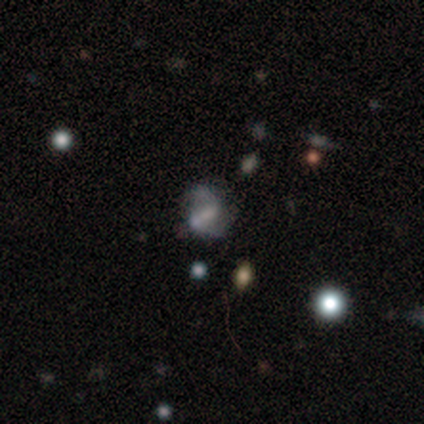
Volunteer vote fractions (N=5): Q: Smooth or featured?
A: smooth (60%); runner-up: featured or disk (40%)
Q: How rounded?
A: in between (67%); runner-up: round (33%)
Q: Merging?
A: major disturbance (60%); runner-up: minor disturbance (40%)